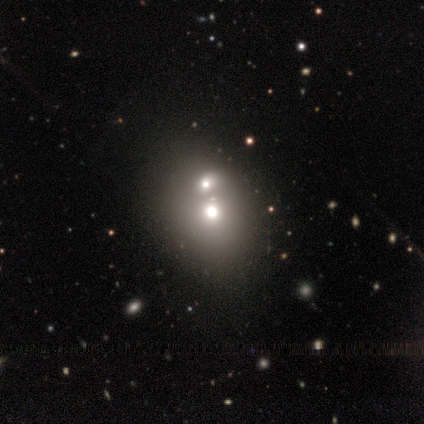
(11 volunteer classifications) smooth_or_featured: smooth (p=0.64) [alt: star or artifact p=0.27]
how_rounded: in between (p=0.57) [alt: round p=0.43]
merging: none (p=0.50) [tied with: merger p=0.50]